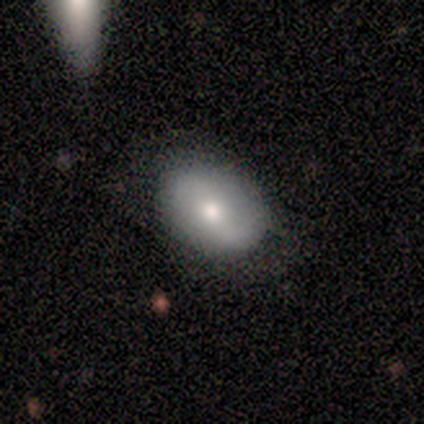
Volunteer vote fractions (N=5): smooth-or-featured: smooth: 40% (tied) | featured or disk: 40% (tied) | star or artifact: 20%
  how-rounded: round: 50% (tied) | in between: 50% (tied) | cigar-shaped: 0%
  merging: none: 100% | minor disturbance: 0% | major disturbance: 0% | merger: 0%